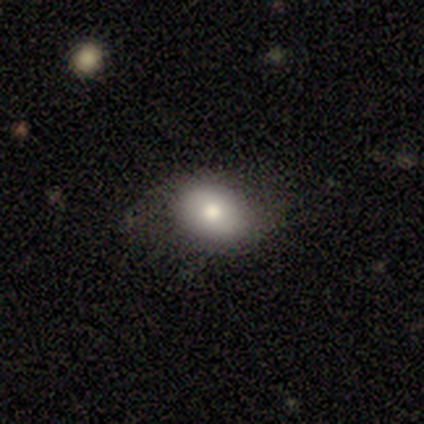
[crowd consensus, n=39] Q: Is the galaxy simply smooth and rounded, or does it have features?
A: smooth — 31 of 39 (79%).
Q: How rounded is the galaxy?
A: in between — 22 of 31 (71%).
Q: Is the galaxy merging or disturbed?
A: none — 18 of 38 (47%).